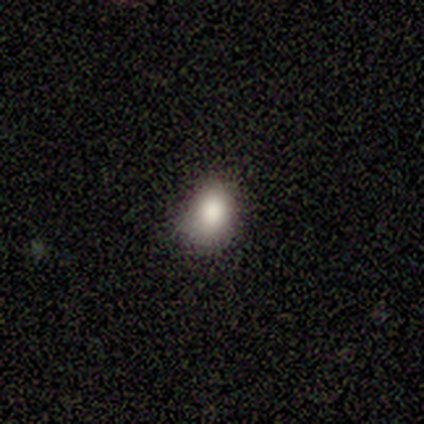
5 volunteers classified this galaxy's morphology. smooth 80%, featured or disk 20%, star or artifact 0%. Down the decision tree: how rounded — round (50%, tied with in between); merging — none (100%).